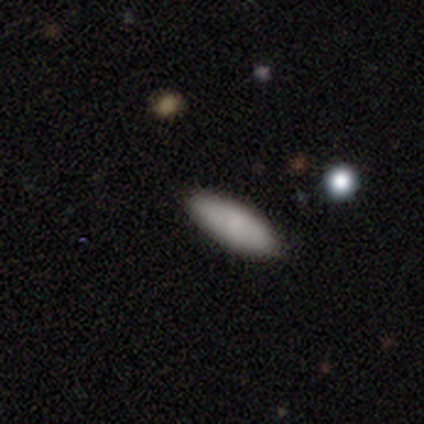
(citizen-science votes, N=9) This appears to be a smooth galaxy with no disk features (89%) that is in between round and cigar-shaped (50%, tied with cigar-shaped). Merging: none (78%).